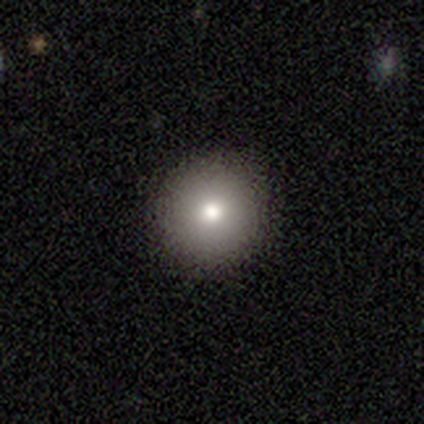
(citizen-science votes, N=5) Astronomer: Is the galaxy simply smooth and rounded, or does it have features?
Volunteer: smooth — 100%.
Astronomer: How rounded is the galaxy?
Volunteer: round — 100%.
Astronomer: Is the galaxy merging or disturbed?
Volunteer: none — 100%.